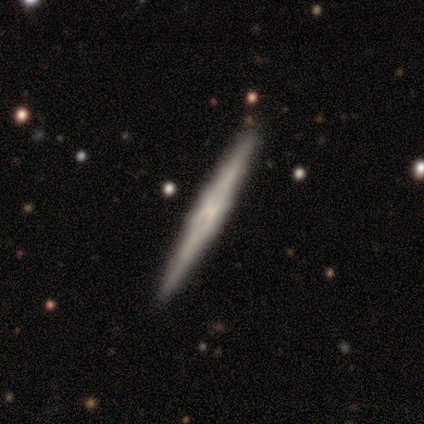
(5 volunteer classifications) smooth-or-featured: featured or disk: 100% | smooth: 0% | star or artifact: 0%
  disk-edge-on: yes: 100% | no: 0%
    edge-on-bulge: none: 80% | boxy: 20% | rounded: 0%
  merging: none: 100% | minor disturbance: 0% | major disturbance: 0% | merger: 0%